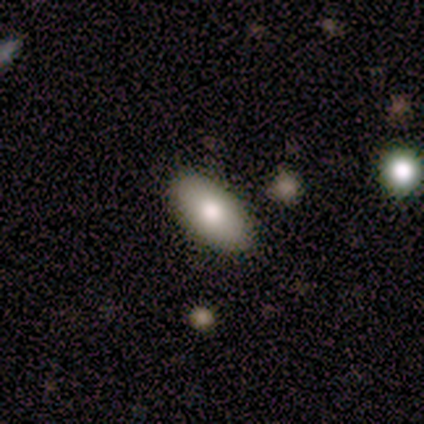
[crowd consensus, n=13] Q: Smooth or featured?
A: smooth (62%); runner-up: featured or disk (23%)
Q: How rounded?
A: in between (100%)
Q: Merging?
A: none (91%); runner-up: minor disturbance (9%)